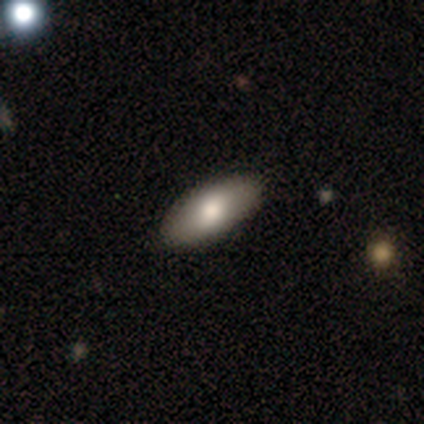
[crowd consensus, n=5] This appears to be a smooth galaxy with no disk features (80%) that is in between round and cigar-shaped (75%). Merging: none (100%).